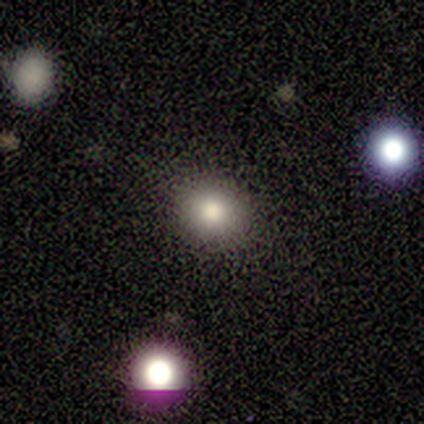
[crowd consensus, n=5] A smooth galaxy with no disk features (80%) that is round (75%).

Vote fractions:
- Smooth or featured? smooth: 80% / star or artifact: 20% / featured or disk: 0%
- How rounded? round: 75% / in between: 25% / cigar-shaped: 0%
- Merging? none: 50% (tied) / minor disturbance: 50% (tied) / major disturbance: 0% / merger: 0%